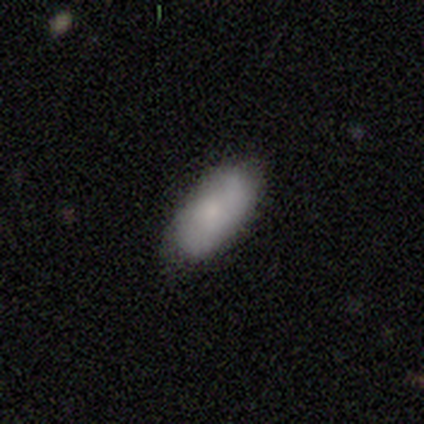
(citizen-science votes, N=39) Morphology: type=smooth (74%); roundness=in between (93%); merging=none (68%).